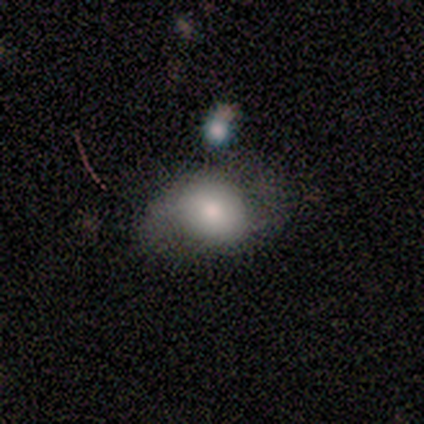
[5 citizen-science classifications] A smooth galaxy with no disk features (80%) that is round (75%).

Vote fractions:
- Smooth or featured? smooth: 80% / star or artifact: 20% / featured or disk: 0%
- How rounded? round: 75% / in between: 25% / cigar-shaped: 0%
- Merging? none: 50% / minor disturbance: 25% / major disturbance: 25% / merger: 0%